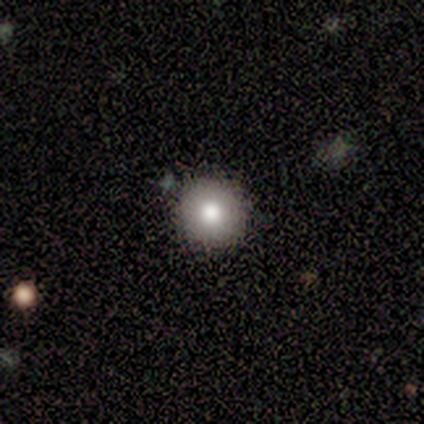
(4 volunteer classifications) smooth 100%, featured or disk 0%, star or artifact 0%. Down the decision tree: how rounded — round (100%); merging — none (100%).